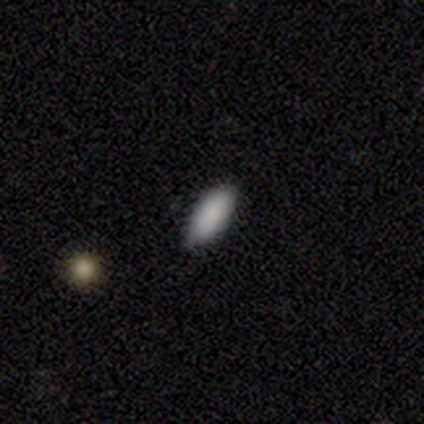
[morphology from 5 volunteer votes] A smooth galaxy with no disk features (100%) that is in between round and cigar-shaped (100%). Merging: none (60%).